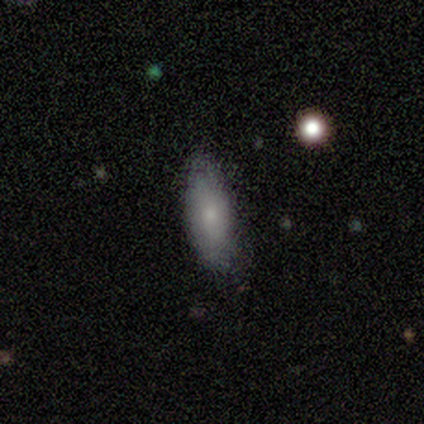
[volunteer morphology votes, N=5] Smooth or featured? smooth (80%)
How rounded? in between (75%)
Merging? none (100%)